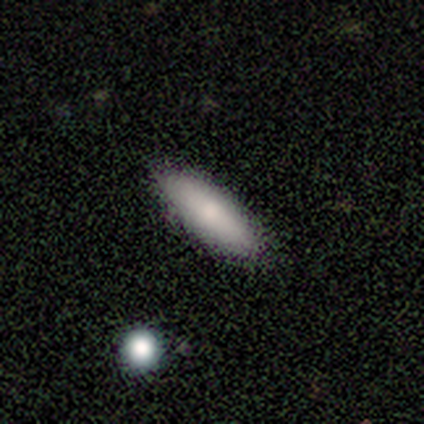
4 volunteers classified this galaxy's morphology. Smooth or featured? 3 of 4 (75%) said smooth. How rounded? 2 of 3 (67%) said in between. Merging? 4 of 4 (100%) said none.